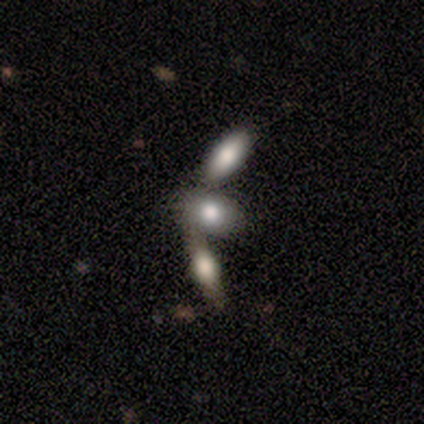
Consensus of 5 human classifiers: Morphology: type=smooth (80%); roundness=in between (100%); merging=merger (80%).